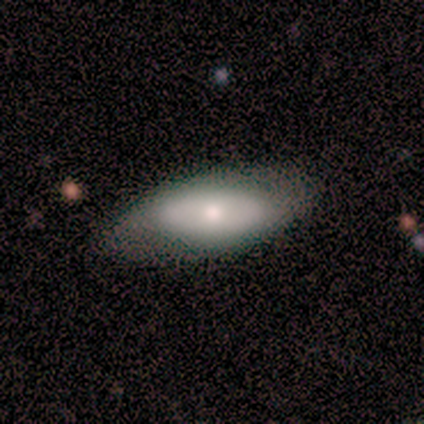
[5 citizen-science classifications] smooth_or_featured: smooth (p=0.80) [alt: featured or disk p=0.20]
how_rounded: in between (p=0.75) [alt: cigar-shaped p=0.25]
merging: none (p=0.80) [alt: minor disturbance p=0.20]